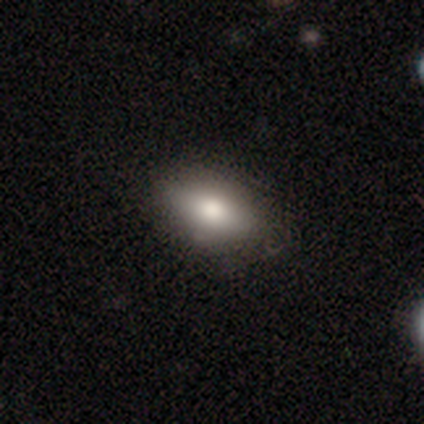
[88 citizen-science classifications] Q: Smooth or featured?
A: smooth (78%); runner-up: featured or disk (12%)
Q: How rounded?
A: in between (80%); runner-up: round (12%)
Q: Merging?
A: none (89%); runner-up: minor disturbance (9%)